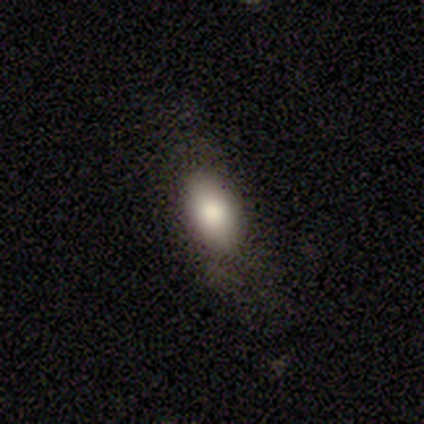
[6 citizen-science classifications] Smooth or featured?
  - smooth: 100% *
  - featured or disk: 0%
  - star or artifact: 0%
How rounded?
  - in between: 100% *
  - round: 0%
  - cigar-shaped: 0%
Merging?
  - none: 83% *
  - minor disturbance: 17%
  - major disturbance: 0%
  - merger: 0%